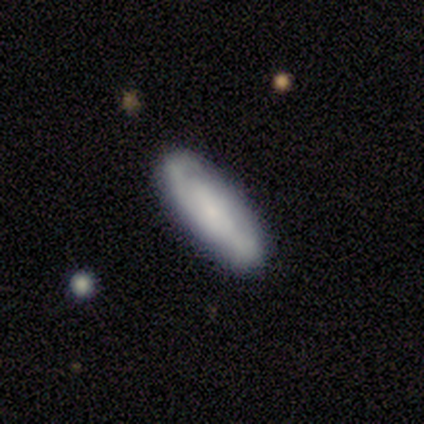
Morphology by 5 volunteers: smooth-or-featured: smooth: 60% | featured or disk: 40% | star or artifact: 0%
  how-rounded: in between: 100% | round: 0% | cigar-shaped: 0%
  merging: none: 100% | minor disturbance: 0% | major disturbance: 0% | merger: 0%